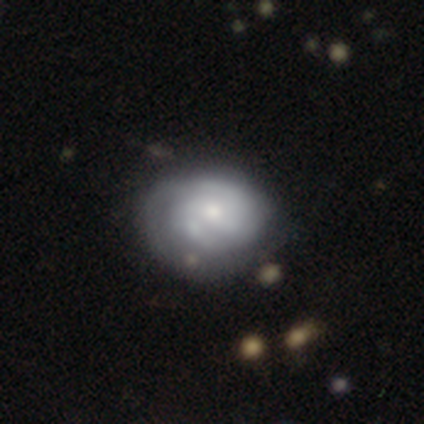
Q: Smooth or featured?
A: featured or disk (62%); runner-up: smooth (31%)
Q: Edge-on disk?
A: no (96%); runner-up: yes (4%)
Q: Bar?
A: no (57%); runner-up: weak (39%)
Q: Spiral arms?
A: yes (83%); runner-up: no (17%)
Q: Spiral winding?
A: tight (58%); runner-up: medium (26%)
Q: Spiral arm count?
A: 2 (58%); runner-up: can't tell (32%)
Q: Bulge size?
A: small (43%); runner-up: moderate (39%)
Q: Merging?
A: none (33%); runner-up: minor disturbance (22%)